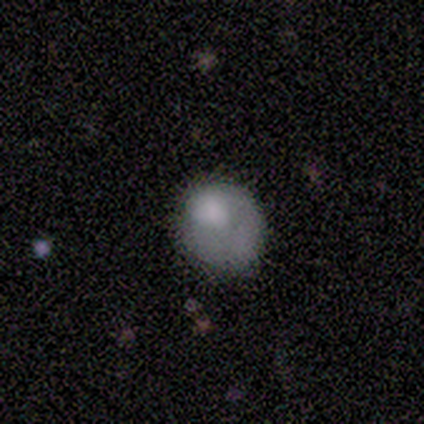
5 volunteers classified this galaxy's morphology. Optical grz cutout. It shows a smooth galaxy with no disk features (80%) that is in between round and cigar-shaped (100%). Merging: none (40%, tied with major disturbance).